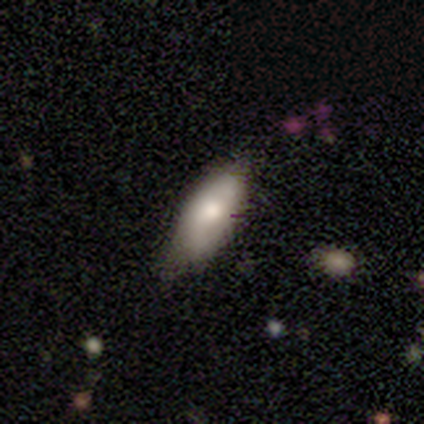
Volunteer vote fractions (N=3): A smooth galaxy with no disk features (33%, tied with featured or disk and star or artifact) that is in between round and cigar-shaped (100%). Merging: none (100%).